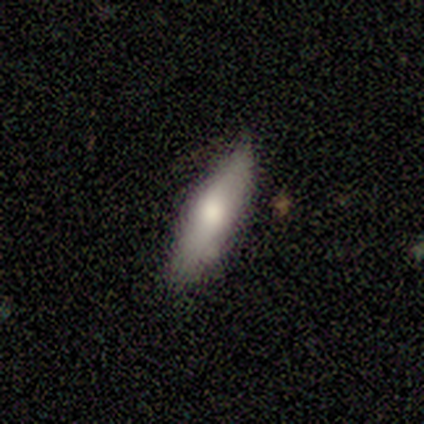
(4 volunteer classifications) A smooth galaxy with no disk features (75%) that is cigar-shaped (100%).

Vote fractions:
- Smooth or featured? smooth: 75% / featured or disk: 25% / star or artifact: 0%
- How rounded? cigar-shaped: 100% / round: 0% / in between: 0%
- Merging? none: 75% / merger: 25% / minor disturbance: 0% / major disturbance: 0%